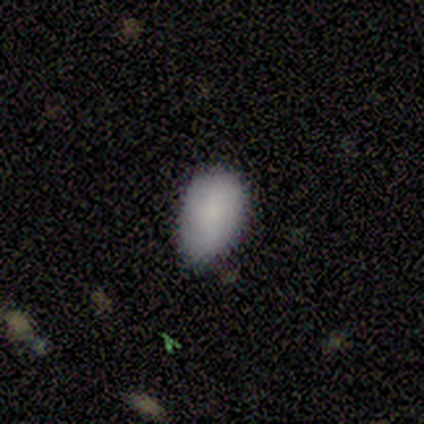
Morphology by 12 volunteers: Smooth or featured: smooth — 92% (featured or disk — 8%)
How rounded: in between — 100%
Merging: none — 67% (minor disturbance — 33%)